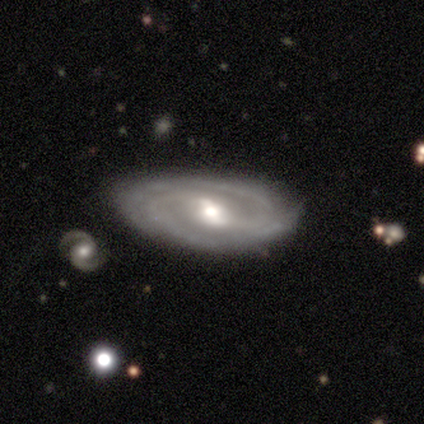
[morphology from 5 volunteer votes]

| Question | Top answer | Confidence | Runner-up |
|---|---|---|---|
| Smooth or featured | featured or disk | 100% | — |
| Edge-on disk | no | 100% | — |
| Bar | weak | 60% | strong (40%) |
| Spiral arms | yes | 100% | — |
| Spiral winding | tight | 40% | tied: medium (40%) |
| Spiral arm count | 2 | 80% | 3 (20%) |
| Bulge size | moderate | 80% | small (20%) |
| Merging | none | 100% | — |